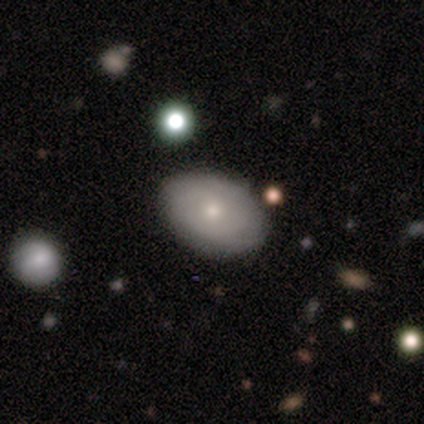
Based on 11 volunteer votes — This is possibly a featured or disk galaxy (55%). It is clearly not viewed edge-on (100%). Bar: clearly no (83%). Spiral arm pattern: likely yes (67%). Spiral arm count: likely can't tell (75%). Spiral winding: clearly tight (100%). Central bulge: possibly moderate (50%, tied with small). Merging: clearly none (90%).